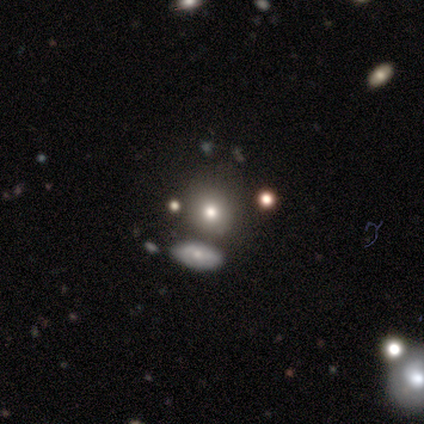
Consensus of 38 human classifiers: Smooth or featured? smooth (61%)
How rounded? round (83%)
Merging? none (75%)